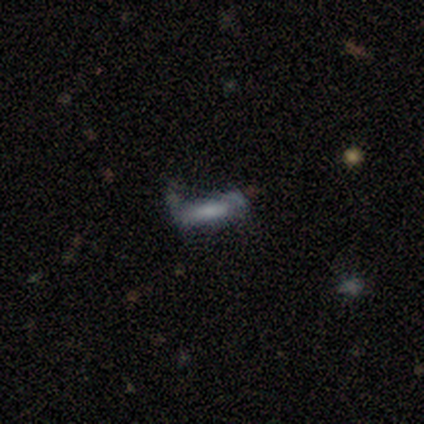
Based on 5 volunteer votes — A smooth galaxy with no disk features (60%) that is in between round and cigar-shaped (67%). Merging: minor disturbance (75%).